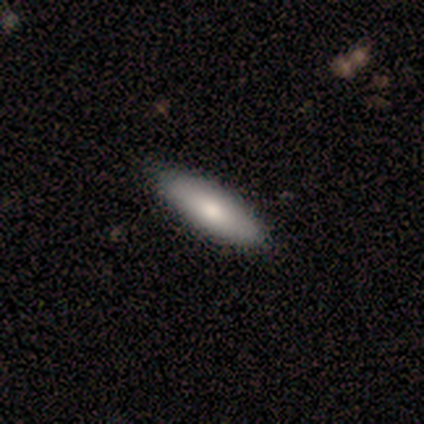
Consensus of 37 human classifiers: A smooth galaxy with no disk features (81%) that is cigar-shaped (53%). Merging: none (70%).